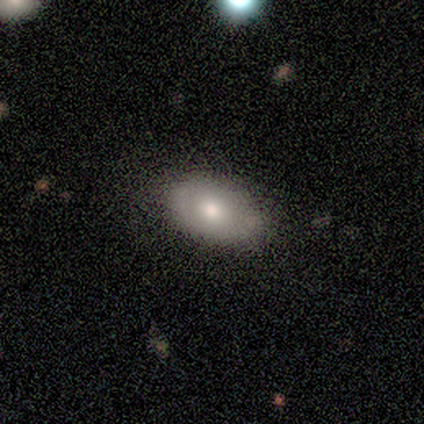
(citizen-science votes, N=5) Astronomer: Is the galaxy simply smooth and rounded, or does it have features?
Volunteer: smooth — 80%.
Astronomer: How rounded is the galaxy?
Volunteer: in between — 100%.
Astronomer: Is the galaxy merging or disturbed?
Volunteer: none — 80%.